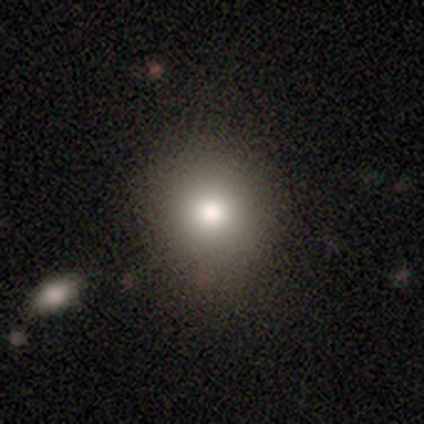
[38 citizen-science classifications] Smooth or featured?
  - smooth: 87% *
  - featured or disk: 11%
  - star or artifact: 3%
How rounded?
  - round: 85% *
  - in between: 15%
  - cigar-shaped: 0%
Merging?
  - none: 65% *
  - merger: 8%
  - minor disturbance: 5%
  - major disturbance: 3%